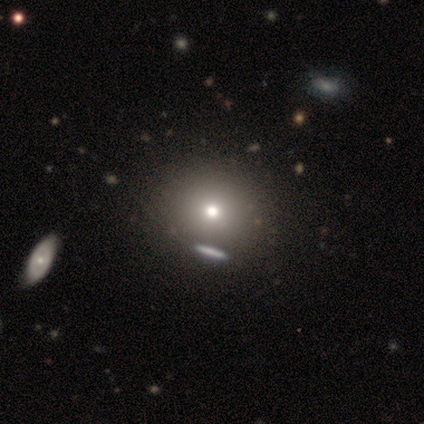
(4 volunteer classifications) This appears to be a smooth galaxy with no disk features (75%) that is in between round and cigar-shaped (67%). Merging: none (75%).